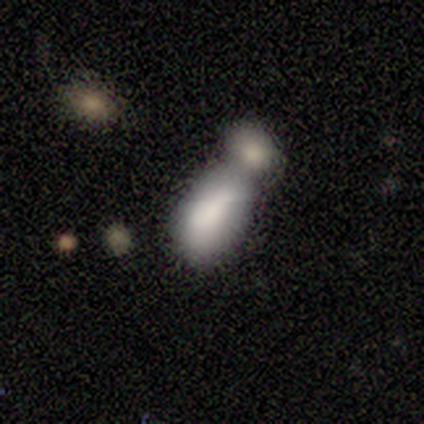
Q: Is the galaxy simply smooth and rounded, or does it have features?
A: smooth — 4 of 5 (80%).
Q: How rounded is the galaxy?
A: in between — 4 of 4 (100%).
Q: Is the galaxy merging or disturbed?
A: merger — 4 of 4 (100%).